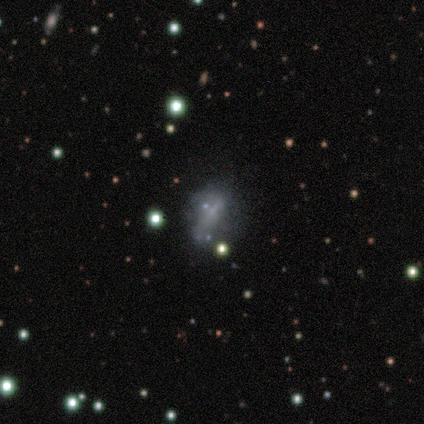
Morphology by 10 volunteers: smooth-or-featured: featured or disk: 60% | smooth: 30% | star or artifact: 10%
  disk-edge-on: no: 100% | yes: 0%
    bar: no: 100% | strong: 0% | weak: 0%
    has-spiral-arms: no: 83% | yes: 17%
    bulge-size: none: 83% | small: 17% | dominant: 0% | large: 0% | moderate: 0%
  merging: minor disturbance: 56% | major disturbance: 33% | none: 11% | merger: 0%